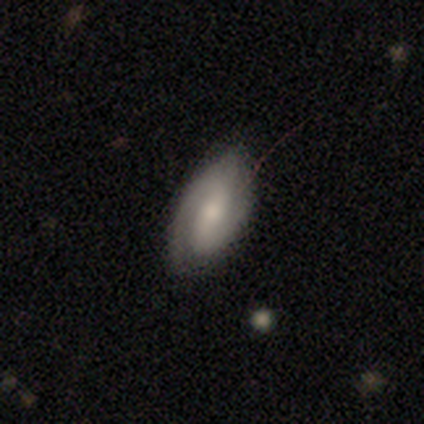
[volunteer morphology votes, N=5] smooth-or-featured: featured or disk: 100% | smooth: 0% | star or artifact: 0%
  disk-edge-on: no: 100% | yes: 0%
    bar: weak: 40% (tied) | no: 40% (tied) | strong: 20%
    has-spiral-arms: yes: 100% | no: 0%
      spiral-winding: medium: 60% | tight: 40% | loose: 0%
      spiral-arm-count: 2: 80% | 1: 20% | 3: 0% | 4: 0% | more than 4: 0% | can't tell: 0%
    bulge-size: moderate: 80% | small: 20% | dominant: 0% | large: 0% | none: 0%
  merging: none: 80% | minor disturbance: 20% | major disturbance: 0% | merger: 0%